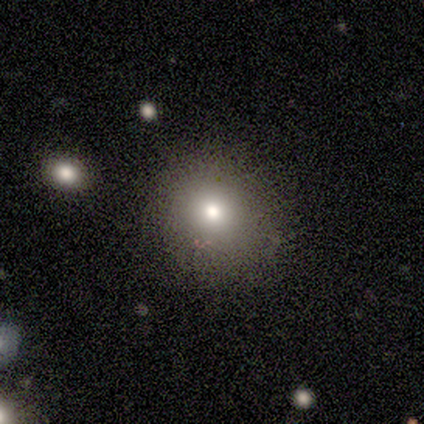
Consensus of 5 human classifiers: A smooth galaxy with no disk features (60%) that is round (67%). Merging: none (50%, tied with minor disturbance).